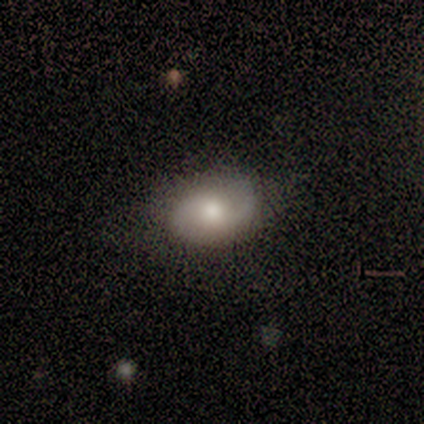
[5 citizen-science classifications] smooth-or-featured: smooth: 60% | featured or disk: 40% | star or artifact: 0%
  how-rounded: round: 67% | in between: 33% | cigar-shaped: 0%
  merging: none: 80% | minor disturbance: 20% | major disturbance: 0% | merger: 0%